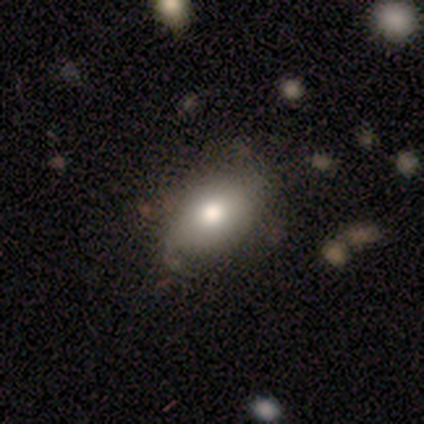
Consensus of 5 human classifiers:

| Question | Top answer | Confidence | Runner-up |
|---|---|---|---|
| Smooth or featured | smooth | 80% | featured or disk (20%) |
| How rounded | in between | 100% | — |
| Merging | none | 60% | minor disturbance (20%) |